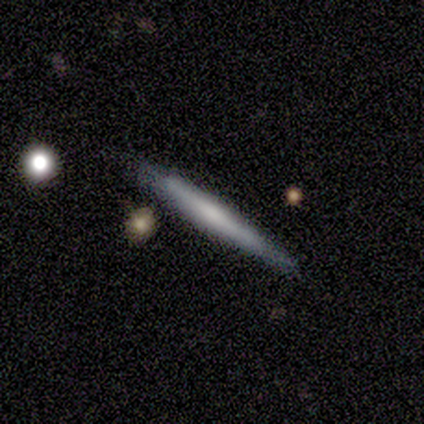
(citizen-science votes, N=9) Volunteers were most divided on "edge-on bulge": none: 44%, rounded: 33%, boxy: 22%. More confident: smooth or featured — featured or disk (100%); edge-on disk — yes (100%); merging — none (89%).